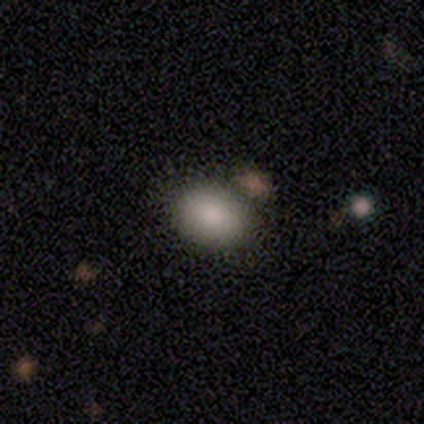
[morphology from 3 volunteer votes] Overall: smooth (100%). How rounded: round (67%; in between 33%). Merging: none (100%).